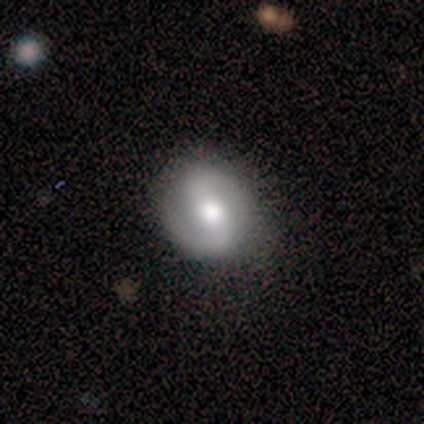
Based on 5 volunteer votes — A featured or disk galaxy (80%) with a strong bar (75%), 2 (100%) medium (50%) spiral arms (100%) and a moderate central bulge (100%).

Vote fractions:
- Smooth or featured? featured or disk: 80% / star or artifact: 20% / smooth: 0%
- Edge-on disk? no: 100% / yes: 0%
- Bar? strong: 75% / weak: 25% / no: 0%
- Spiral arms? yes: 100% / no: 0%
- Spiral winding? medium: 50% / tight: 25% / loose: 25%
- Spiral arm count? 2: 100% / 1: 0% / 3: 0% / 4: 0% / more than 4: 0% / can't tell: 0%
- Bulge size? moderate: 100% / dominant: 0% / large: 0% / small: 0% / none: 0%
- Merging? minor disturbance: 75% / none: 25% / major disturbance: 0% / merger: 0%